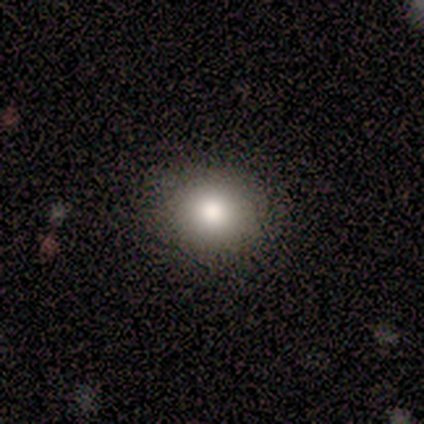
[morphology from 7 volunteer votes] Smooth or featured? 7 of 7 (100%) said smooth. How rounded? 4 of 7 (57%) said round. Merging? 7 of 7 (100%) said none.